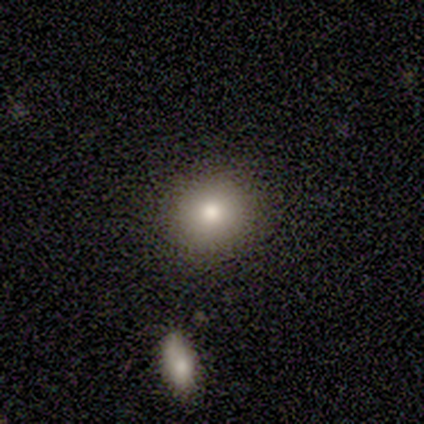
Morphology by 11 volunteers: Smooth or featured?
  - smooth: 91% *
  - star or artifact: 9%
  - featured or disk: 0%
How rounded?
  - round: 100% *
  - in between: 0%
  - cigar-shaped: 0%
Merging?
  - none: 100% *
  - minor disturbance: 0%
  - major disturbance: 0%
  - merger: 0%